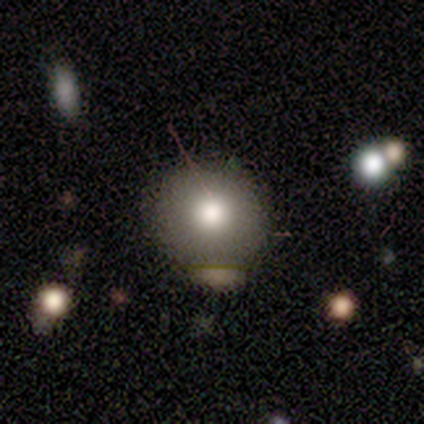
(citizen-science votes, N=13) This is likely a smooth galaxy (77%). How rounded: clearly round (80%). Merging: clearly none (92%).